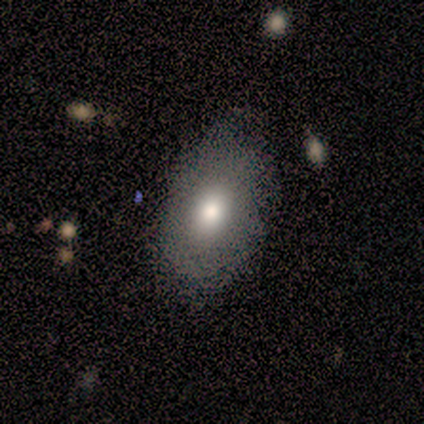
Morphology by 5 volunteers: Smooth or featured?
  - smooth: 60% *
  - star or artifact: 40%
  - featured or disk: 0%
How rounded?
  - in between: 100% *
  - round: 0%
  - cigar-shaped: 0%
Merging?
  - none: 100% *
  - minor disturbance: 0%
  - major disturbance: 0%
  - merger: 0%